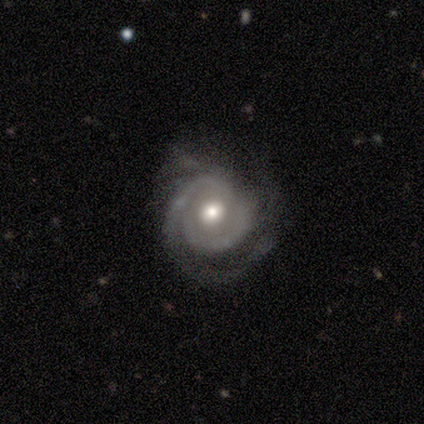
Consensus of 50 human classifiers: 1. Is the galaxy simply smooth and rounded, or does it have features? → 82% featured or disk, 12% smooth, 6% star or artifact.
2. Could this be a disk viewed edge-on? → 100% no, 0% yes.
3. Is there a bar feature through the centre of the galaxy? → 73% no, 22% weak, 5% strong.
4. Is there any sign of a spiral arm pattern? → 95% yes, 5% no.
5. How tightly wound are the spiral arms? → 69% tight, 26% medium, 5% loose.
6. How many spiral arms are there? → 44% 2, 26% can't tell, 18% 3, 13% 1, 0% 4, 0% more than 4.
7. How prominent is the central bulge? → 71% moderate, 15% large, 12% small, 2% none, 0% dominant.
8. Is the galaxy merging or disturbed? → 60% none, 23% minor disturbance, 15% major disturbance, 2% merger.